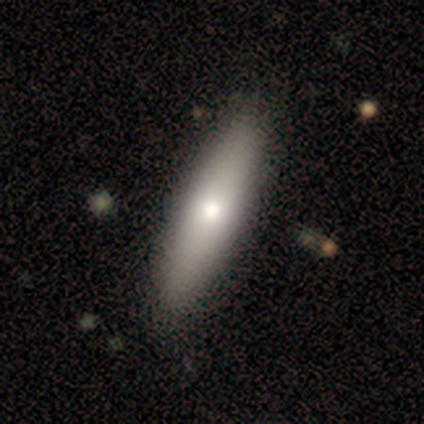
This is likely a smooth galaxy (75%). How rounded: possibly in between (50%, tied with cigar-shaped). Merging: likely none (65%).